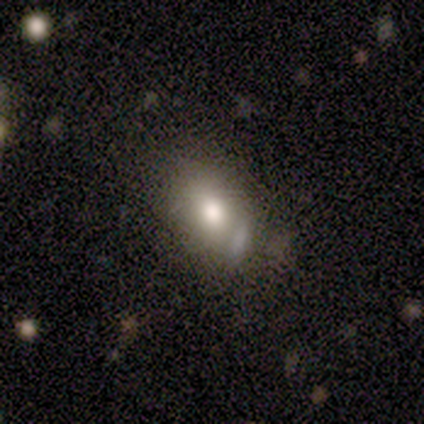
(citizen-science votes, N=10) Smooth or featured? 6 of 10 (60%) said smooth. How rounded? 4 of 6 (67%) said in between. Merging? 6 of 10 (60%) said none.